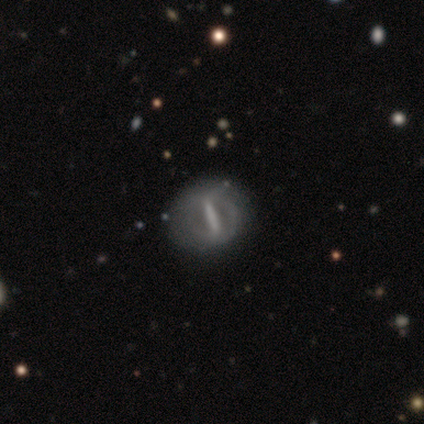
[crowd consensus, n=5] featured or disk 100%, smooth 0%, star or artifact 0%. Down the decision tree: edge-on disk — no (60%); bar — strong (100%); spiral arms — no (100%); bulge size — none (100%); merging — none (100%).